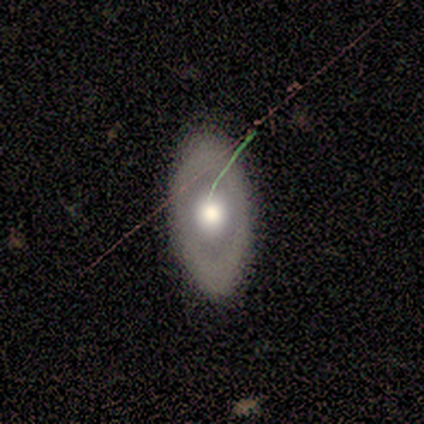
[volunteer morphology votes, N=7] Q: Smooth or featured?
A: featured or disk (71%); runner-up: smooth (29%)
Q: Edge-on disk?
A: no (100%)
Q: Bar?
A: no (100%)
Q: Spiral arms?
A: no (100%)
Q: Bulge size?
A: moderate (60%); runner-up: large (20%)
Q: Merging?
A: minor disturbance (57%); runner-up: none (43%)